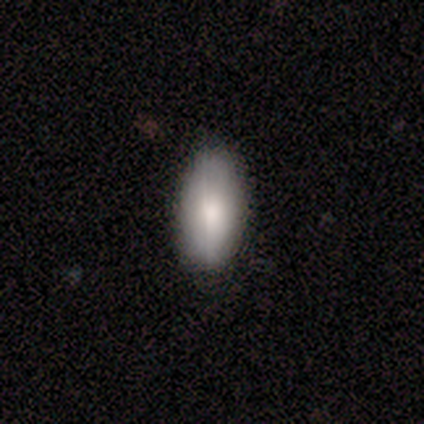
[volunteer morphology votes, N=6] Smooth or featured? 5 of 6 (83%) said smooth. How rounded? 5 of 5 (100%) said in between. Merging? 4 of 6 (67%) said none.